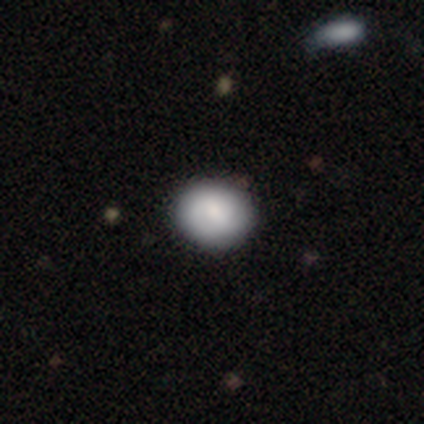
This is likely a smooth galaxy (79%). How rounded: likely round (74%). Merging: possibly none (46%).